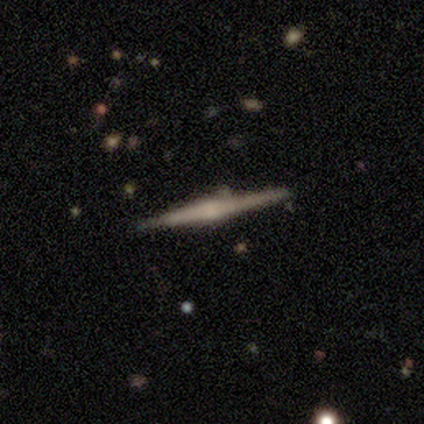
Smooth or featured?
  - featured or disk: 79% *
  - smooth: 16%
  - star or artifact: 5%
Edge-on disk?
  - yes: 97% *
  - no: 3%
Edge-on bulge?
  - rounded: 79% *
  - none: 14%
  - boxy: 7%
Merging?
  - none: 92% *
  - minor disturbance: 8%
  - major disturbance: 0%
  - merger: 0%